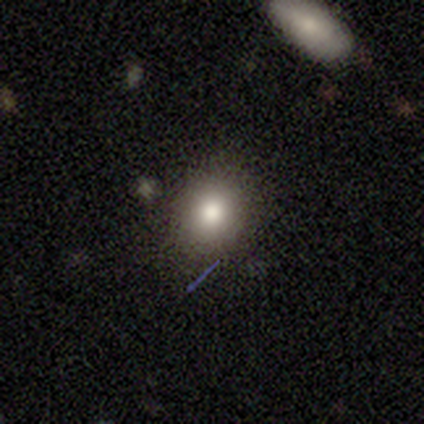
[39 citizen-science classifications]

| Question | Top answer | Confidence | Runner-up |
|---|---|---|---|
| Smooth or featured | smooth | 67% | star or artifact (18%) |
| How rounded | round | 73% | in between (27%) |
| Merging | none | 94% | minor disturbance (3%) |